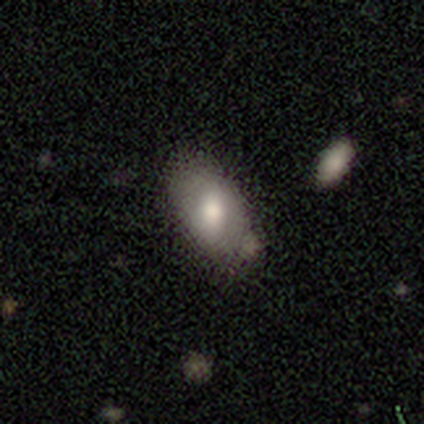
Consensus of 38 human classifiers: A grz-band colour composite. It shows a smooth galaxy with no disk features (66%) that is in between round and cigar-shaped (92%). Merging: none (61%).